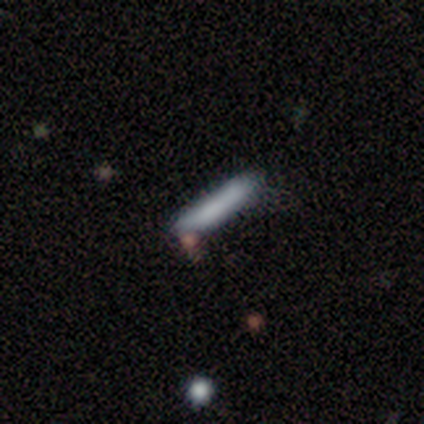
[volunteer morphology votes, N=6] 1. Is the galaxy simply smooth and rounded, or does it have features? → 67% smooth, 17% featured or disk, 17% star or artifact.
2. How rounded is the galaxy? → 100% cigar-shaped, 0% round, 0% in between.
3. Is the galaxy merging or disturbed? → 80% none, 20% merger, 0% minor disturbance, 0% major disturbance.